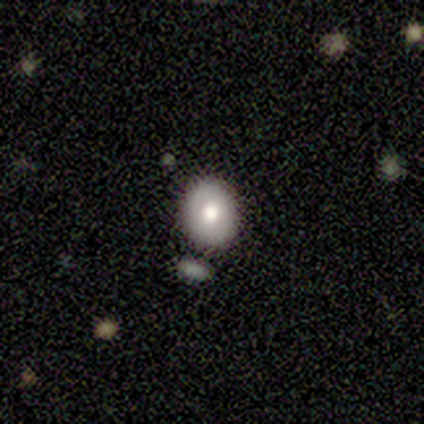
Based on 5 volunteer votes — Smooth or featured: smooth — 80% (featured or disk — 20%)
How rounded: in between — 75% (round — 25%)
Merging: none — 80% (minor disturbance — 20%)